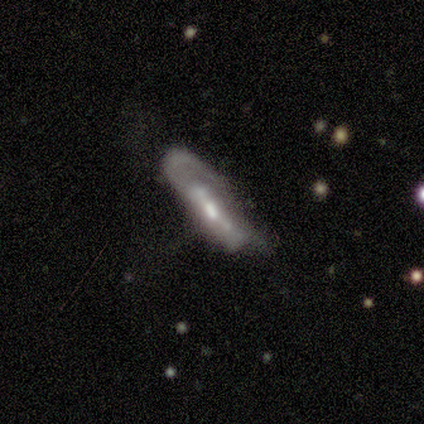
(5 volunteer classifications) featured or disk 60%, smooth 40%, star or artifact 0%. Down the decision tree: edge-on disk — yes (67%); edge-on bulge — none (50%, tied with rounded); merging — none (40%, tied with major disturbance).